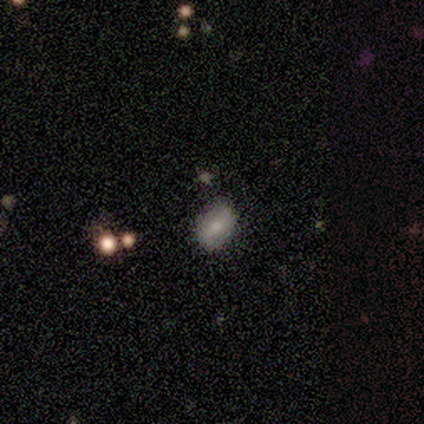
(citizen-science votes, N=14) Volunteers were most divided on "smooth or featured": smooth: 57%, featured or disk: 29%, star or artifact: 14%. More confident: how rounded — in between (88%); merging — none (83%).